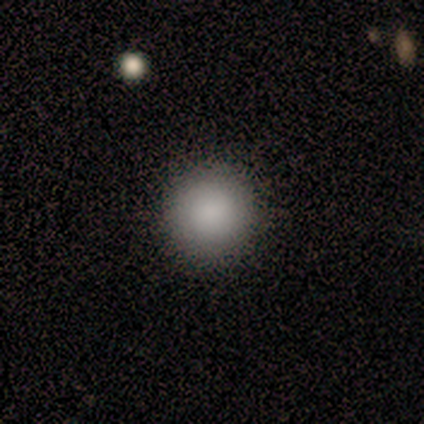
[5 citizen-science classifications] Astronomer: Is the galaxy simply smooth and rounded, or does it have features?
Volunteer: smooth — 80%.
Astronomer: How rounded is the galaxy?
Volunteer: round — 100%.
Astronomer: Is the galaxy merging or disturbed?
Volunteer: none — 100%.